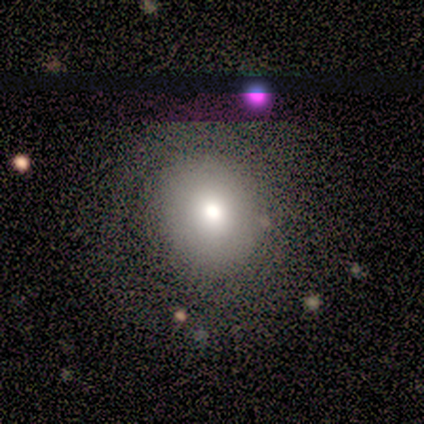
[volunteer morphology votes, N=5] smooth_or_featured: smooth (p=0.40) [tied with: featured or disk p=0.40]
how_rounded: round (p=1.00)
merging: none (p=0.50) [alt: minor disturbance p=0.25]